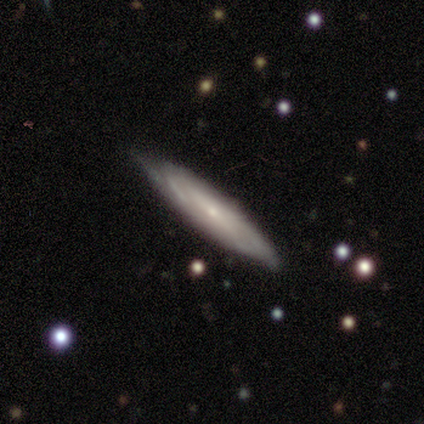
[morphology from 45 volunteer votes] Smooth or featured: featured or disk — 69% (smooth — 29%)
Edge-on disk: no — 61% (yes — 39%)
Bar: no — 63% (weak — 32%)
Spiral arms: yes — 84% (no — 16%)
Spiral winding: tight — 62% (medium — 25%)
Spiral arm count: can't tell — 75% (2 — 19%)
Bulge size: small — 89% (moderate — 11%)
Merging: none — 70% (minor disturbance — 30%)